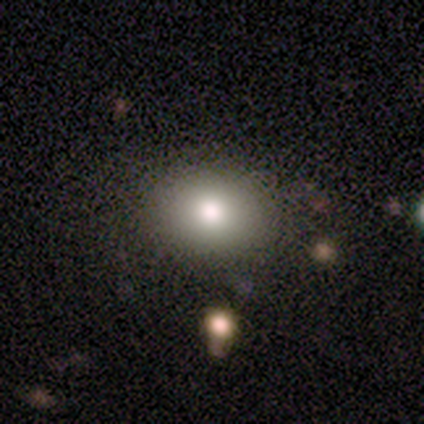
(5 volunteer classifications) A smooth galaxy with no disk features (60%) that is round (33%, tied with in between and cigar-shaped).

Vote fractions:
- Smooth or featured? smooth: 60% / featured or disk: 40% / star or artifact: 0%
- How rounded? round: 33% (tied) / in between: 33% (tied) / cigar-shaped: 33% (tied)
- Merging? none: 100% / minor disturbance: 0% / major disturbance: 0% / merger: 0%